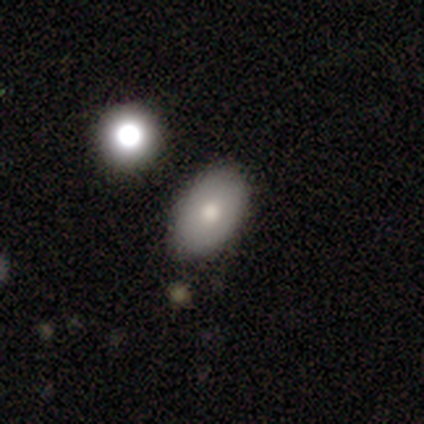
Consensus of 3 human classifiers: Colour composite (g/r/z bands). It shows a smooth galaxy with no disk features (100%) that is in between round and cigar-shaped (67%). Merging: none (100%).